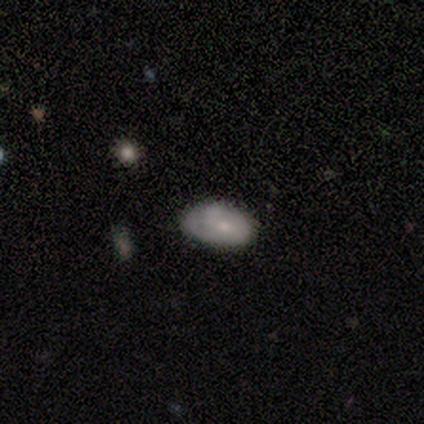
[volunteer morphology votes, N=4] Volunteers were most divided on "merging": none: 67%, minor disturbance: 33%, major disturbance: 0%, merger: 0%. More confident: how rounded — in between (100%); smooth or featured — smooth (75%).